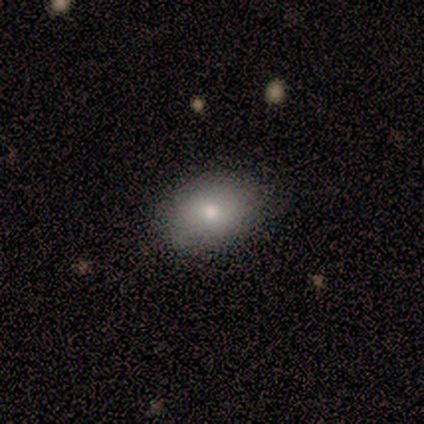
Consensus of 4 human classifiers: Smooth or featured? 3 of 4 (75%) said smooth. How rounded? 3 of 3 (100%) said in between. Merging? 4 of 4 (100%) said none.